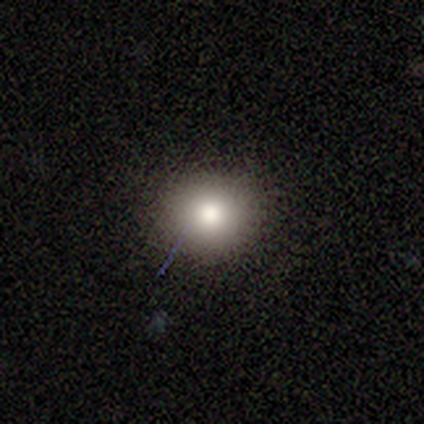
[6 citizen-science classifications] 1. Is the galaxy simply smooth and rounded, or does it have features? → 67% smooth, 33% star or artifact, 0% featured or disk.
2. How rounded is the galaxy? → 100% round, 0% in between, 0% cigar-shaped.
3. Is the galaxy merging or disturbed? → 75% none, 25% minor disturbance, 0% major disturbance, 0% merger.